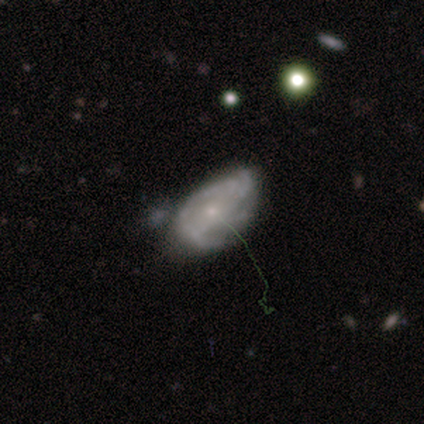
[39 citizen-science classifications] Q: Smooth or featured?
A: featured or disk (62%); runner-up: smooth (26%)
Q: Edge-on disk?
A: no (96%); runner-up: yes (4%)
Q: Bar?
A: no (65%); runner-up: weak (26%)
Q: Spiral arms?
A: yes (65%); runner-up: no (35%)
Q: Spiral winding?
A: medium (47%); runner-up: tight (40%)
Q: Spiral arm count?
A: 3 (40%); runner-up: can't tell (33%)
Q: Bulge size?
A: small (74%); runner-up: none (17%)
Q: Merging?
A: none (41%); runner-up: minor disturbance (35%)